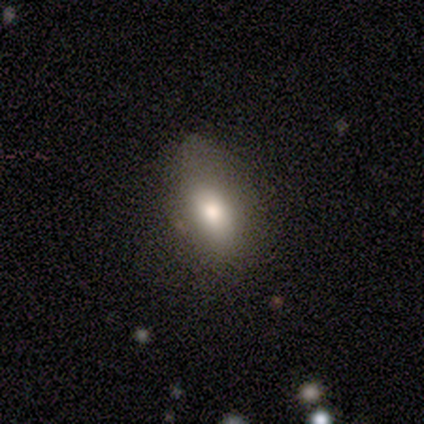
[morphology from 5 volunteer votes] A smooth galaxy with no disk features (80%) that is in between round and cigar-shaped (100%).

Vote fractions:
- Smooth or featured? smooth: 80% / star or artifact: 20% / featured or disk: 0%
- How rounded? in between: 100% / round: 0% / cigar-shaped: 0%
- Merging? none: 75% / minor disturbance: 25% / major disturbance: 0% / merger: 0%